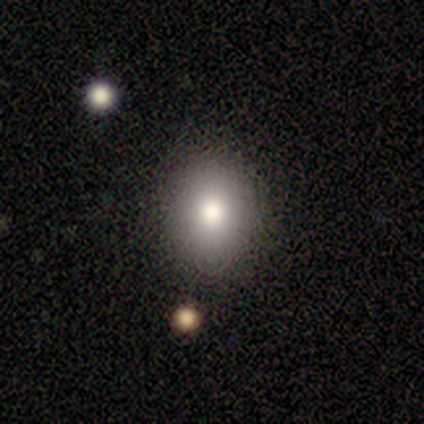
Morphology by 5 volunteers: Overall: smooth (80%). How rounded: in between (75%). Merging: none (100%).